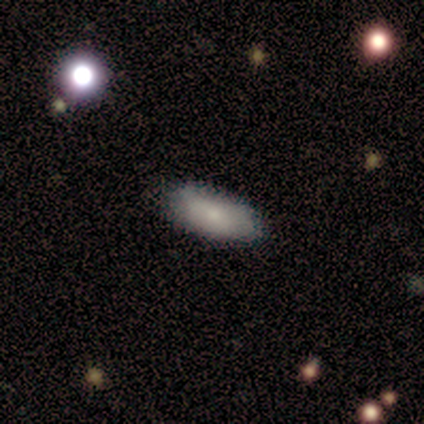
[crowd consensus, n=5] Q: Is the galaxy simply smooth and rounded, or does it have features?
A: smooth — 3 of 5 (60%).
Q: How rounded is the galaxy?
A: cigar-shaped — 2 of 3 (67%).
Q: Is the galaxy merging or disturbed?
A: none — 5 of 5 (100%).